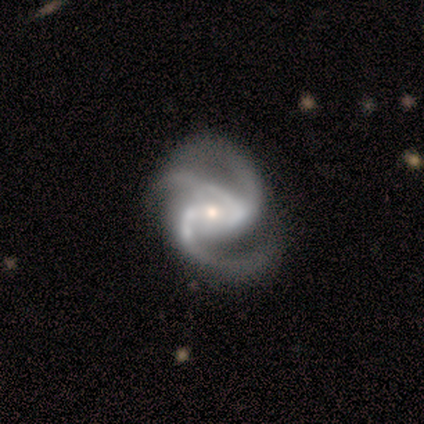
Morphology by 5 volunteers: Overall: featured or disk (100%). Edge-on disk: no (100%). Bar: strong (60%; weak 20%). Spiral arms: yes (100%). Spiral arm count: 3 (100%). Spiral winding: tight (60%; medium 20%). Bulge size: small (80%). Merging: none (80%).